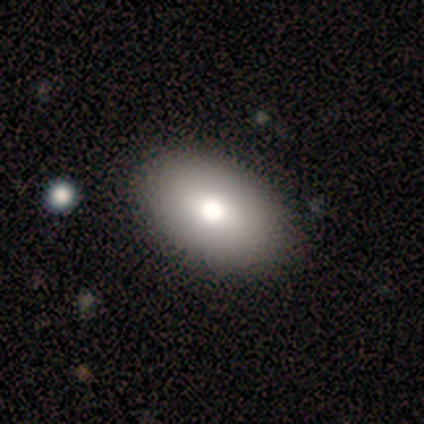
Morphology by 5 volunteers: smooth-or-featured: smooth: 80% | star or artifact: 20% | featured or disk: 0%
  how-rounded: in between: 100% | round: 0% | cigar-shaped: 0%
  merging: none: 50% (tied) | minor disturbance: 50% (tied) | major disturbance: 0% | merger: 0%